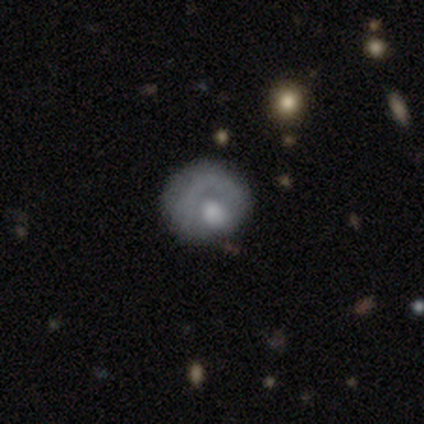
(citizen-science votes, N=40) smooth_or_featured: featured or disk (p=0.50) [alt: smooth p=0.47]
disk_edge_on: no (p=1.00)
bar: no (p=1.00)
has_spiral_arms: no (p=0.55) [alt: yes p=0.45]
bulge_size: moderate (p=0.60) [alt: large p=0.30]
merging: none (p=0.46) [alt: major disturbance p=0.31]